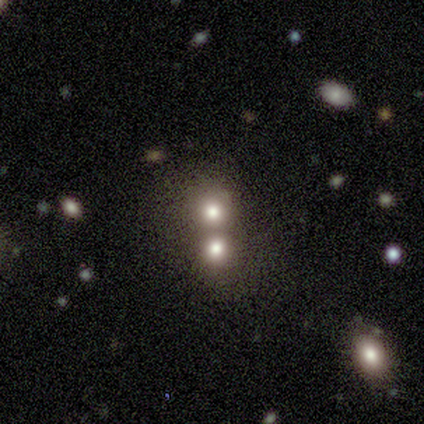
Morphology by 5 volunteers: Q: Smooth or featured?
A: star or artifact (60%); runner-up: smooth (20%)